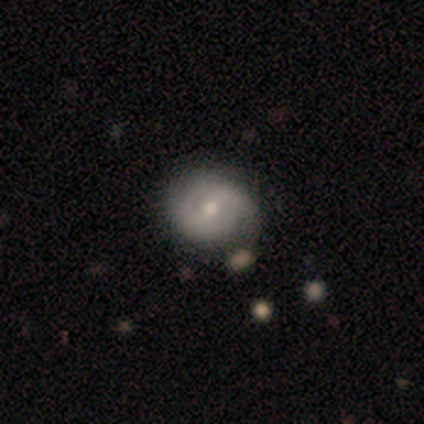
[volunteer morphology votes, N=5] A featured or disk galaxy (60%) with a weak bar (67%), 1 (100%) tight (50%, tied with loose) spiral arms (67%) and a moderate central bulge (100%).

Vote fractions:
- Smooth or featured? featured or disk: 60% / smooth: 40% / star or artifact: 0%
- Edge-on disk? no: 100% / yes: 0%
- Bar? weak: 67% / strong: 33% / no: 0%
- Spiral arms? yes: 67% / no: 33%
- Spiral winding? tight: 50% (tied) / loose: 50% (tied) / medium: 0%
- Spiral arm count? 1: 100% / 2: 0% / 3: 0% / 4: 0% / more than 4: 0% / can't tell: 0%
- Bulge size? moderate: 100% / dominant: 0% / large: 0% / small: 0% / none: 0%
- Merging? minor disturbance: 60% / none: 20% / merger: 20% / major disturbance: 0%